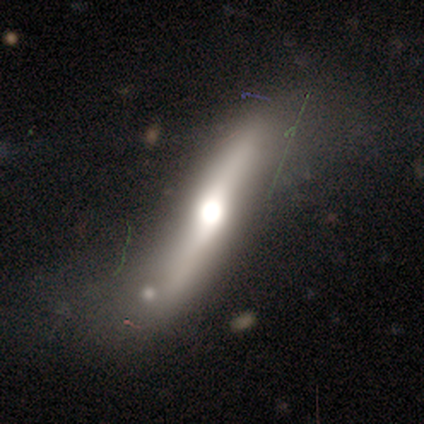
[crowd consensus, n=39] This appears to be a featured or disk galaxy (69%) viewed edge-on (74%) with a rounded central bulge (95%). Merging: none (49%).